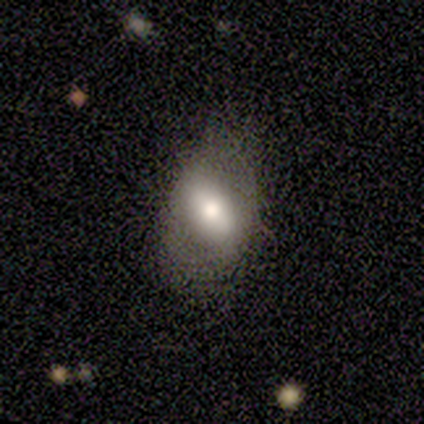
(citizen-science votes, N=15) Smooth or featured? 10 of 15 (67%) said smooth. How rounded? 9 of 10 (90%) said in between. Merging? 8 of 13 (62%) said none.